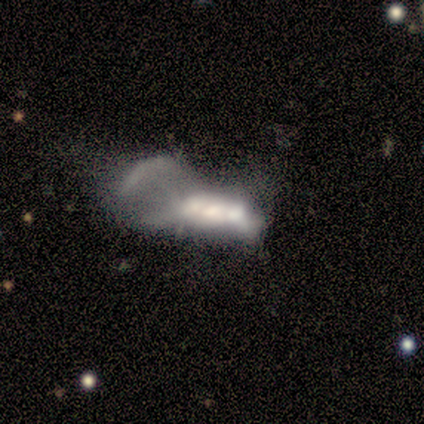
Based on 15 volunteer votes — Smooth or featured? 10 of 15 (67%) said featured or disk. Edge-on disk? 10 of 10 (100%) said no. Bar? 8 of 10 (80%) said no. Spiral arms? 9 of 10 (90%) said no. Bulge size? 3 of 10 (30%) said none. Merging? 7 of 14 (50%) said major disturbance.